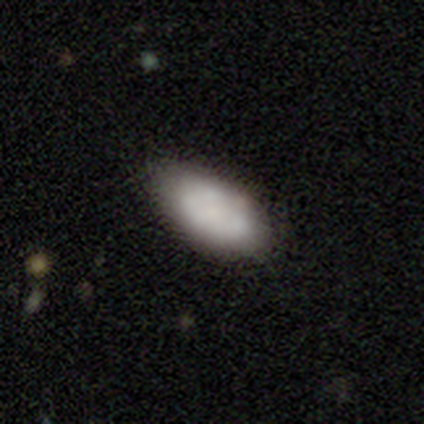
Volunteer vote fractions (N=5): Morphology: type=featured or disk (60%); edge-on=no (100%); bar=no (100%); spiral arms=no (100%); bulge=small (67%); merging=none (100%).